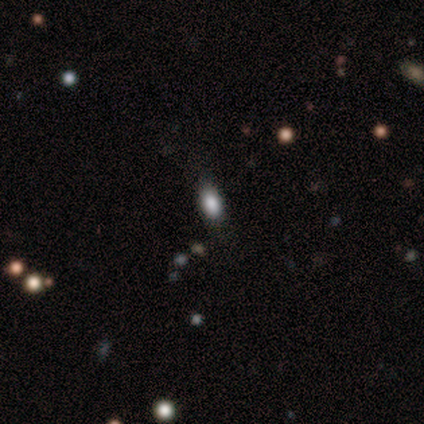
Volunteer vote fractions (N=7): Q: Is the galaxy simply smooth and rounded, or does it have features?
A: smooth — 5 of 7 (71%).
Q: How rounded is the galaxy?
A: in between — 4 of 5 (80%).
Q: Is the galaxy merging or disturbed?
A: none — 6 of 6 (100%).